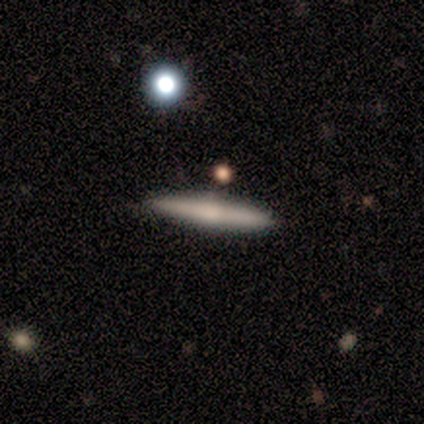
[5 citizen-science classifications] Morphology: type=smooth (40%, tied with featured or disk); roundness=cigar-shaped (100%); merging=none (75%).